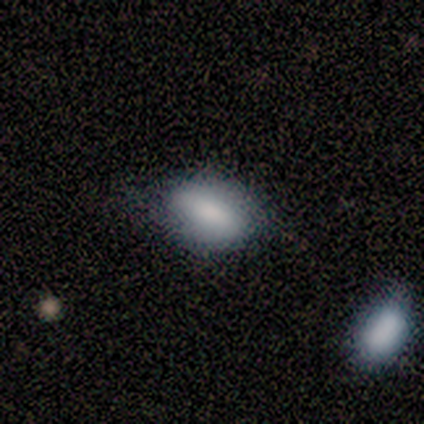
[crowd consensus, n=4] Smooth or featured? smooth (75%)
How rounded? in between (100%)
Merging? none (100%)